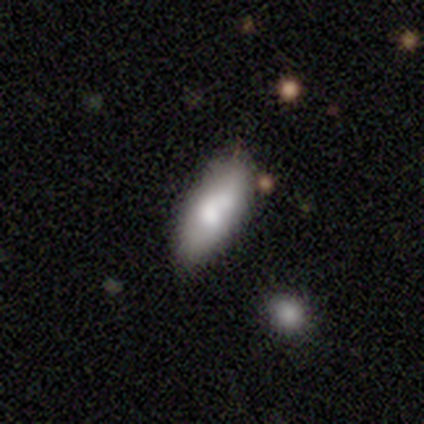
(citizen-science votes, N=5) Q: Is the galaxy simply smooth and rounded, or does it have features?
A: smooth — 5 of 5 (100%).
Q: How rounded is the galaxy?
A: in between — 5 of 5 (100%).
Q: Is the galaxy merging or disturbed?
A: none — 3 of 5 (60%).